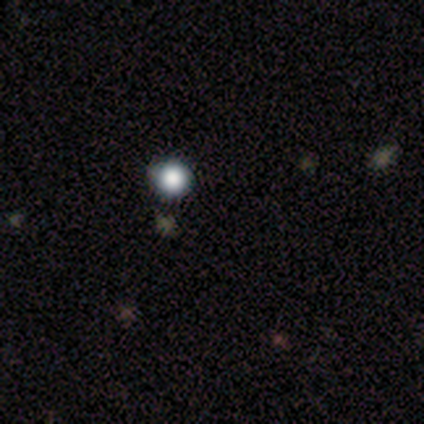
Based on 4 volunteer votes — Volunteers were most divided on "smooth or featured": smooth: 75%, star or artifact: 25%, featured or disk: 0%. More confident: how rounded — round (100%); merging — none (100%).